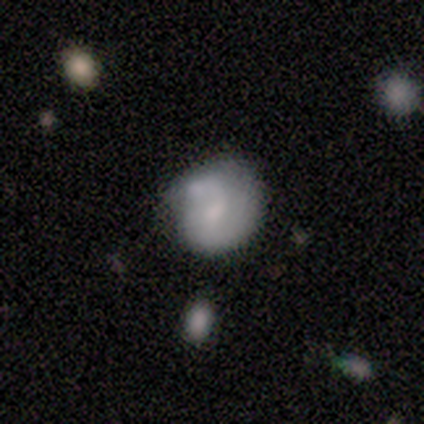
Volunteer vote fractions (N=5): Volunteers were most divided on "merging" (2-way tie): none: 40%, major disturbance: 40%, merger: 20%, minor disturbance: 0%. More confident: how rounded — round (67%); smooth or featured — smooth (60%).